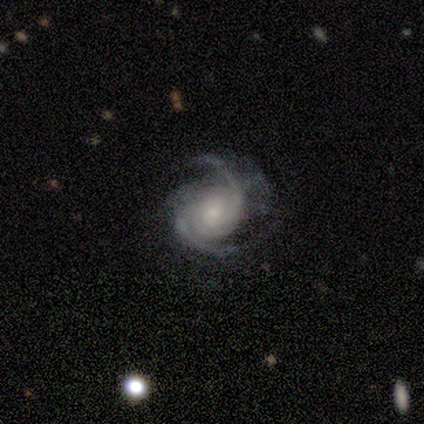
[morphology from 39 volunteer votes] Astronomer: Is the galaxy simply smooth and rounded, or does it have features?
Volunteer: featured or disk — 92%.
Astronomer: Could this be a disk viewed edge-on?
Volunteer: no — 100%.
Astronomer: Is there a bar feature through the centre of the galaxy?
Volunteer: no — 67%.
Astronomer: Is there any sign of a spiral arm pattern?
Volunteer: yes — 100%.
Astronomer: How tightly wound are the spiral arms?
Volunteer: medium — 56% (runner-up: tight, 36%).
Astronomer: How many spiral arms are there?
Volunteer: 2 — 81%.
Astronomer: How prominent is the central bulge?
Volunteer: small — 69%.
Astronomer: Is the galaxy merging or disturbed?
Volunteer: none — 65%.